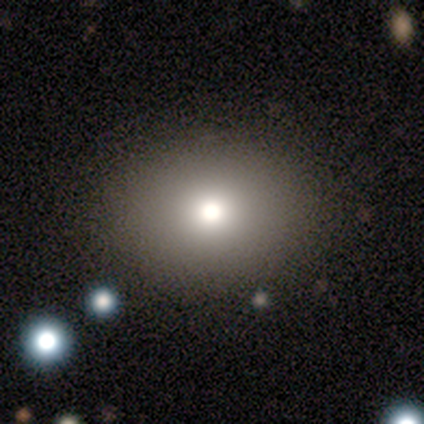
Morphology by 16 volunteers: smooth_or_featured: smooth (p=0.69) [alt: star or artifact p=0.19]
how_rounded: round (p=0.64) [alt: in between p=0.36]
merging: none (p=0.92) [alt: major disturbance p=0.08]